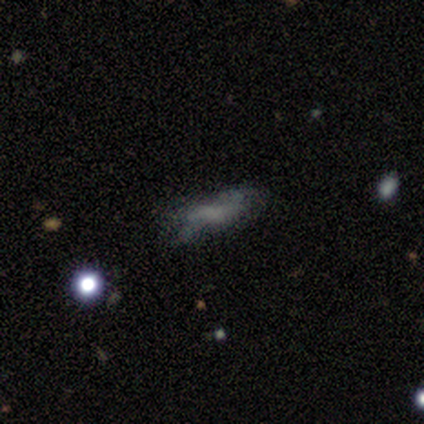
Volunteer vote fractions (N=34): smooth_or_featured: smooth (p=0.53) [alt: featured or disk p=0.32]
how_rounded: in between (p=0.67) [alt: cigar-shaped p=0.33]
merging: none (p=0.48) [alt: minor disturbance p=0.38]